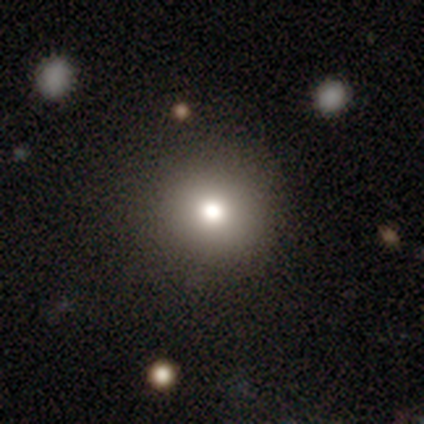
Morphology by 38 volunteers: Q: Smooth or featured?
A: smooth (79%); runner-up: featured or disk (11%)
Q: How rounded?
A: round (90%); runner-up: in between (10%)
Q: Merging?
A: none (91%); runner-up: minor disturbance (9%)